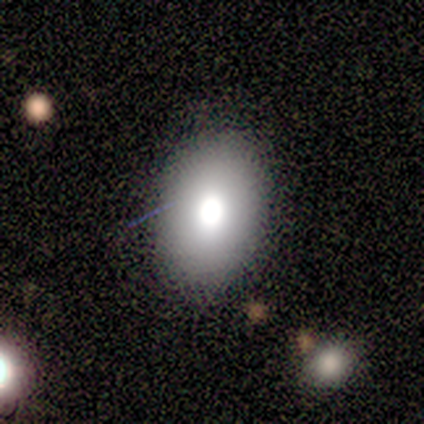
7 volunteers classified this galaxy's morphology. A smooth galaxy with no disk features (43%, tied with star or artifact) that is in between round and cigar-shaped (100%).

Vote fractions:
- Smooth or featured? smooth: 43% (tied) / star or artifact: 43% (tied) / featured or disk: 14%
- How rounded? in between: 100% / round: 0% / cigar-shaped: 0%
- Merging? none: 100% / minor disturbance: 0% / major disturbance: 0% / merger: 0%